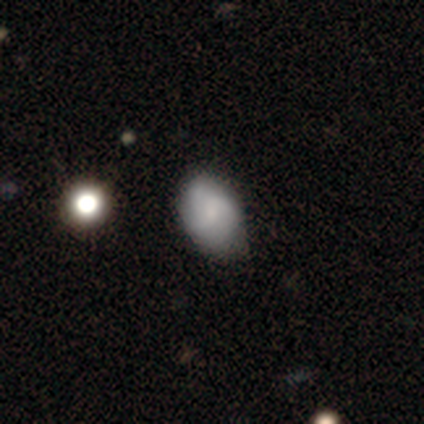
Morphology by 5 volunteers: Overall: smooth (100%). How rounded: in between (100%). Merging: none (60%; minor disturbance 40%).